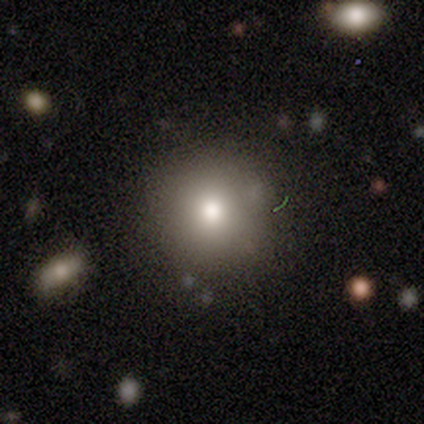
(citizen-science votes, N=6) smooth_or_featured: smooth (p=0.67) [alt: star or artifact p=0.33]
how_rounded: round (p=1.00)
merging: none (p=1.00)